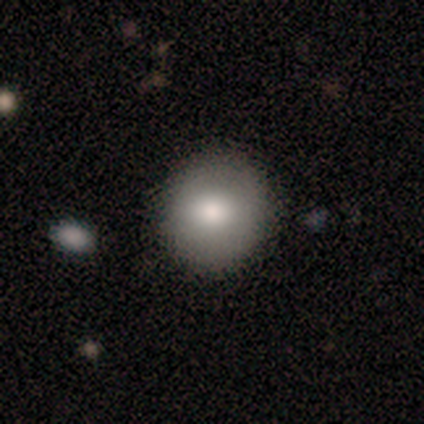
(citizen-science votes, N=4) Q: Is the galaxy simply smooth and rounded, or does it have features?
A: smooth — 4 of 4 (100%).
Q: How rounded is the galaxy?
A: round — 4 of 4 (100%).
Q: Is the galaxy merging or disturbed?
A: none — 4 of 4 (100%).